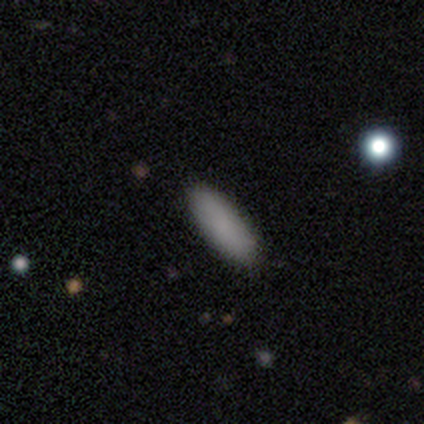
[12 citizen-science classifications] smooth-or-featured: smooth: 83% | featured or disk: 8% | star or artifact: 8%
  how-rounded: in between: 80% | cigar-shaped: 20% | round: 0%
  merging: none: 82% | minor disturbance: 18% | major disturbance: 0% | merger: 0%